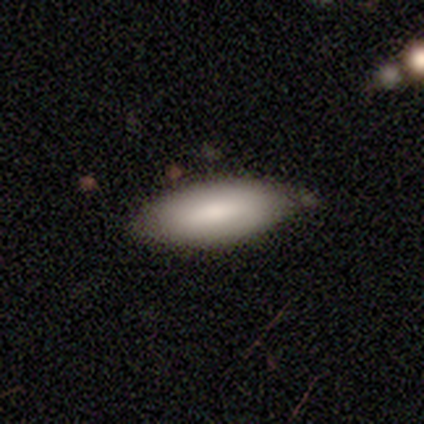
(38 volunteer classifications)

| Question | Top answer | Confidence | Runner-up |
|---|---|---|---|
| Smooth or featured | smooth | 74% | featured or disk (24%) |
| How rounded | in between | 89% | cigar-shaped (11%) |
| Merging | none | 51% | minor disturbance (16%) |